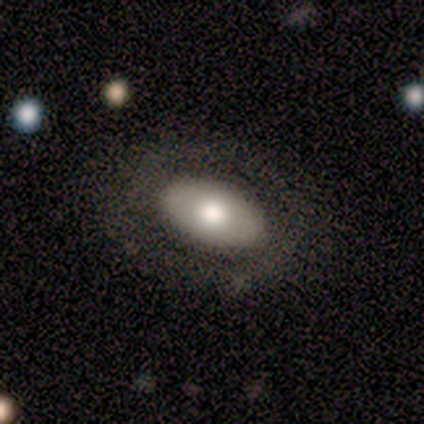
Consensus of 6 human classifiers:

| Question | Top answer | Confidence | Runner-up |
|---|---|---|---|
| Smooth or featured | smooth | 67% | star or artifact (33%) |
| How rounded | in between | 75% | round (25%) |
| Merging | none | 75% | minor disturbance (25%) |